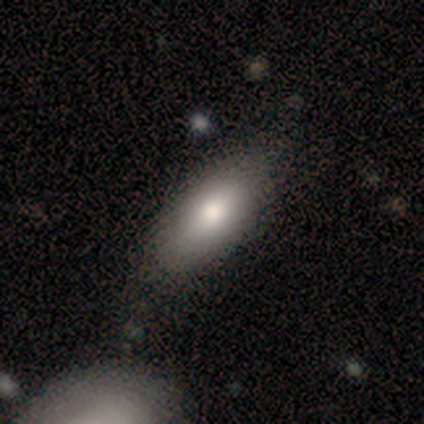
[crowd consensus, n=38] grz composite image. It shows a smooth galaxy with no disk features (82%) that is in between round and cigar-shaped (77%). Merging: none (66%).